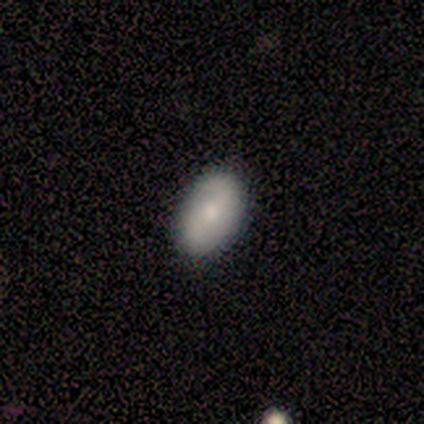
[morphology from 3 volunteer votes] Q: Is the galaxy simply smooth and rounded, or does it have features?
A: smooth — 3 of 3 (100%).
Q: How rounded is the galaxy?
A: in between — 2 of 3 (67%).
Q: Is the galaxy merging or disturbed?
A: none — 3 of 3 (100%).